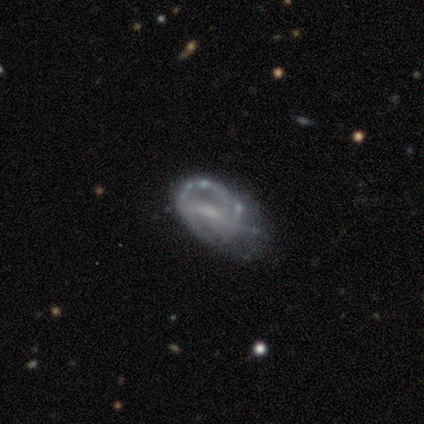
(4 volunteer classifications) This is likely a featured or disk galaxy (75%). It is clearly not viewed edge-on (100%). Bar: clearly weak (100%). Spiral arm pattern: likely yes (67%). Spiral arm count: possibly 1 (50%, tied with can't tell). Spiral winding: clearly tight (100%). Central bulge: marginally moderate (33%, tied with small and none). Merging: possibly minor disturbance (50%, tied with major disturbance).